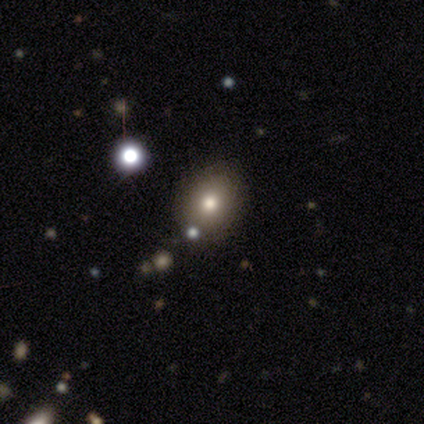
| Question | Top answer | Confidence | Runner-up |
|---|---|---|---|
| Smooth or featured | smooth | 40% | tied: star or artifact (40%) |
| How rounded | round | 50% | tied: in between (50%) |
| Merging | none | 100% | — |